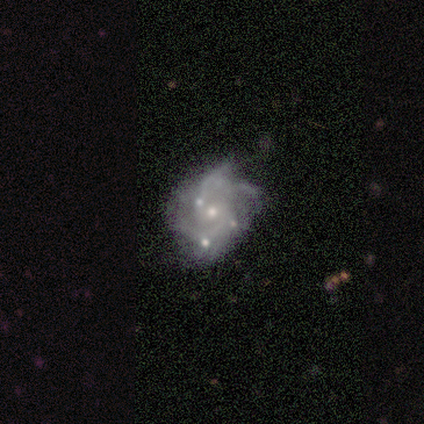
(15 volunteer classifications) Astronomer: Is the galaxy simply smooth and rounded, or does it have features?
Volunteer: featured or disk — 73%.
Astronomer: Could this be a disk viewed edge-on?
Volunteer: no — 91%.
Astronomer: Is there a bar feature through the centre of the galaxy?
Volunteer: no — 80%.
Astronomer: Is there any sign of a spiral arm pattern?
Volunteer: yes — 80%.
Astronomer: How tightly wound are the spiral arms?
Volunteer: medium — 75%.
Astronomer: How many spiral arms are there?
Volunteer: can't tell — 62%.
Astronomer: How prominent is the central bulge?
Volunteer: small — 70%.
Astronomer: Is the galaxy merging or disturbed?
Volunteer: minor disturbance — 38% (runner-up: merger, 31%).